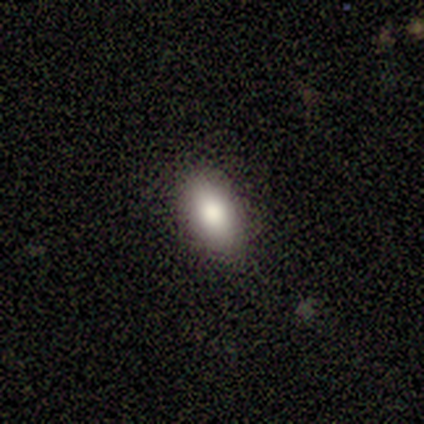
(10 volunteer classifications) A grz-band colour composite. It shows a smooth galaxy with no disk features (90%) that is in between round and cigar-shaped (67%). Merging: none (90%).